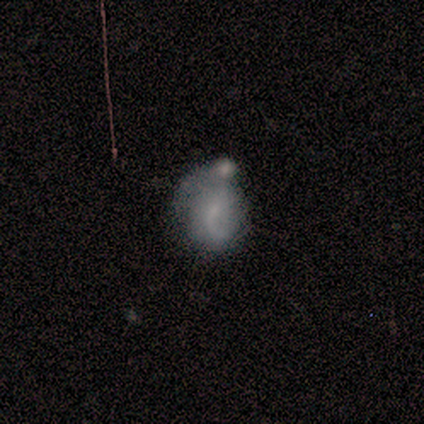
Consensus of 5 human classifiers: Q: Smooth or featured?
A: featured or disk (60%); runner-up: smooth (40%)
Q: Edge-on disk?
A: no (100%)
Q: Bar?
A: no (100%)
Q: Spiral arms?
A: yes (67%); runner-up: no (33%)
Q: Spiral winding?
A: medium (50%); tied with: loose (50%)
Q: Spiral arm count?
A: 1 (50%); tied with: 2 (50%)
Q: Bulge size?
A: large (33%); tied with: small (33%); none (33%)
Q: Merging?
A: major disturbance (40%); tied with: merger (40%)